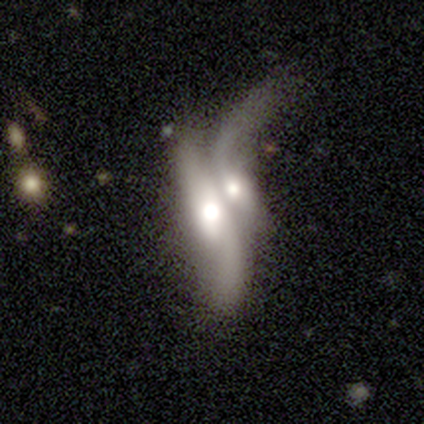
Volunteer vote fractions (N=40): Volunteers were most divided on "bulge size": moderate: 58%, large: 38%, none: 4%, dominant: 0%, small: 0%. More confident: merging — merger (95%); spiral winding — loose (94%); bar — no (79%); smooth or featured — featured or disk (78%); edge-on disk — no (77%); spiral arms — yes (71%); spiral arm count — 2 (65%).